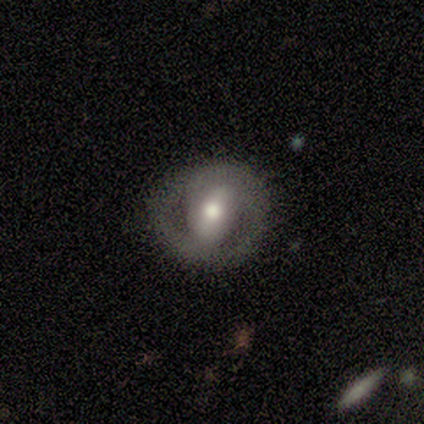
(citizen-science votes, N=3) Smooth or featured?
  - featured or disk: 100% *
  - smooth: 0%
  - star or artifact: 0%
Edge-on disk?
  - no: 67% *
  - yes: 33%
Bar?
  - strong: 50% * (tied)
  - no: 50% * (tied)
  - weak: 0%
Spiral arms?
  - yes: 100% *
  - no: 0%
Spiral winding?
  - tight: 100% *
  - medium: 0%
  - loose: 0%
Spiral arm count?
  - 2: 50% * (tied)
  - can't tell: 50% * (tied)
  - 1: 0%
  - 3: 0%
  - 4: 0%
  - more than 4: 0%
Bulge size?
  - moderate: 100% *
  - dominant: 0%
  - large: 0%
  - small: 0%
  - none: 0%
Merging?
  - none: 67% *
  - minor disturbance: 33%
  - major disturbance: 0%
  - merger: 0%